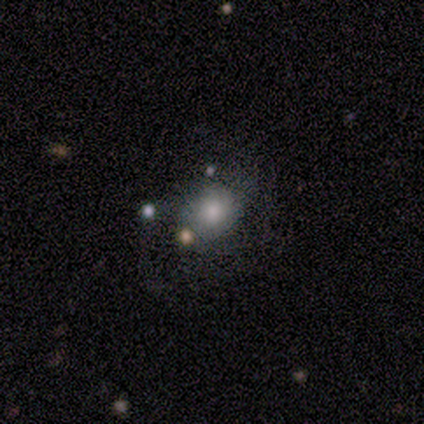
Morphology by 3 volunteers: Smooth or featured: smooth — 67% (featured or disk — 33%)
How rounded: round — 100%
Merging: none — 67% (major disturbance — 33%)